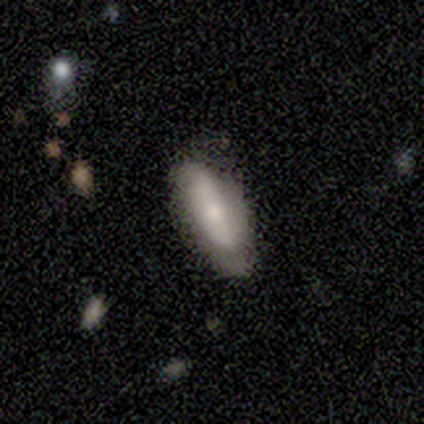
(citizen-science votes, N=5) This is likely a smooth galaxy (60%). How rounded: likely in between (67%). Merging: clearly none (100%).